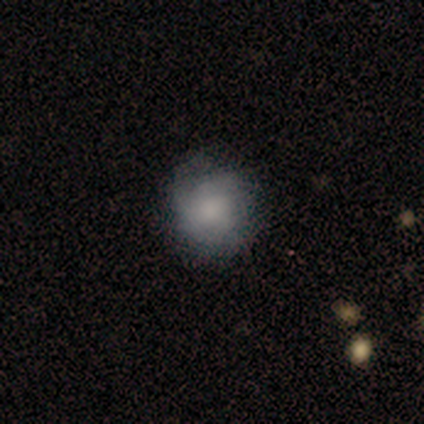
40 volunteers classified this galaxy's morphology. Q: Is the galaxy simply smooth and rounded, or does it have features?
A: smooth — 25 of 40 (62%).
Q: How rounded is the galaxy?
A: round — 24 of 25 (96%).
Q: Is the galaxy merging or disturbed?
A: none — 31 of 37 (84%).